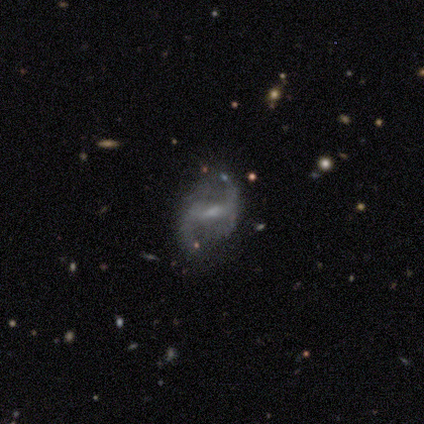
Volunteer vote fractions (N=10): Smooth or featured: featured or disk — 100%
Edge-on disk: no — 70% (yes — 30%)
Bar: weak — 57% (no — 29%)
Spiral arms: yes — 100%
Spiral winding: loose — 57% (medium — 29%)
Spiral arm count: 2 — 71% (4 — 14%)
Bulge size: small — 43% (moderate — 29%)
Merging: none — 80% (minor disturbance — 10%)